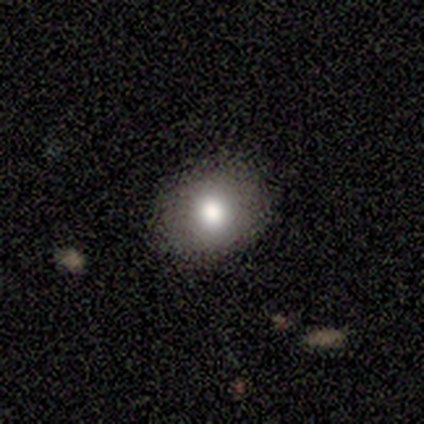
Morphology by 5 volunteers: Smooth or featured: smooth — 80% (star or artifact — 20%)
How rounded: round — 75% (in between — 25%)
Merging: none — 75% (major disturbance — 25%)